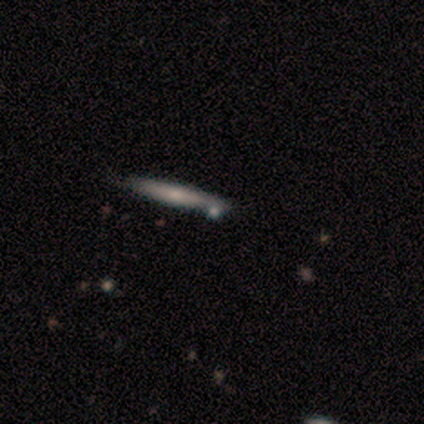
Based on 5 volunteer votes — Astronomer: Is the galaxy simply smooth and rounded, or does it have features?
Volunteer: smooth — 60%.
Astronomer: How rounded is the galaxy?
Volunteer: cigar-shaped — 100%.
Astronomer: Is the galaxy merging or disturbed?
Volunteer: none — 75%.